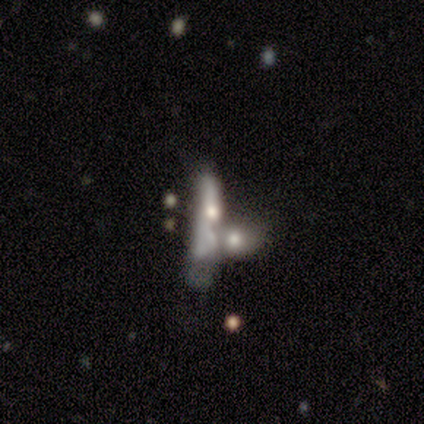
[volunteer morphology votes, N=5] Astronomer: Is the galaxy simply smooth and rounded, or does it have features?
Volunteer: featured or disk — 60%.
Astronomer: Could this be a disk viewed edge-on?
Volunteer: yes — 67%.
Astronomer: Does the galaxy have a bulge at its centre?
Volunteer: rounded — 100%.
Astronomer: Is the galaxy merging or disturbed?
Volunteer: merger — 50%.